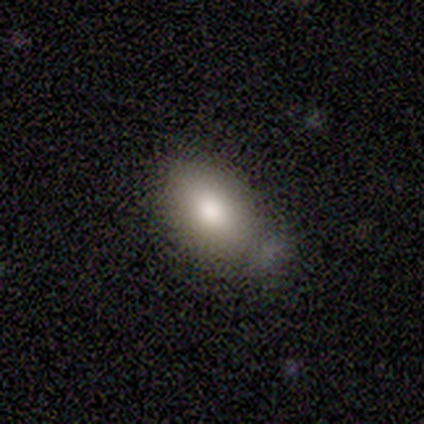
This appears to be a smooth galaxy with no disk features (89%) that is in between round and cigar-shaped (75%). Merging: none (76%).